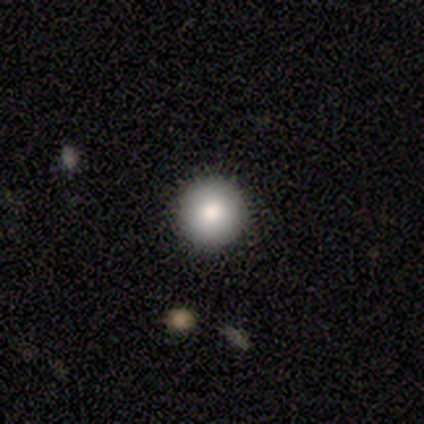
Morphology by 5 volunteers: Smooth or featured?
  - smooth: 100% *
  - featured or disk: 0%
  - star or artifact: 0%
How rounded?
  - round: 100% *
  - in between: 0%
  - cigar-shaped: 0%
Merging?
  - none: 100% *
  - minor disturbance: 0%
  - major disturbance: 0%
  - merger: 0%